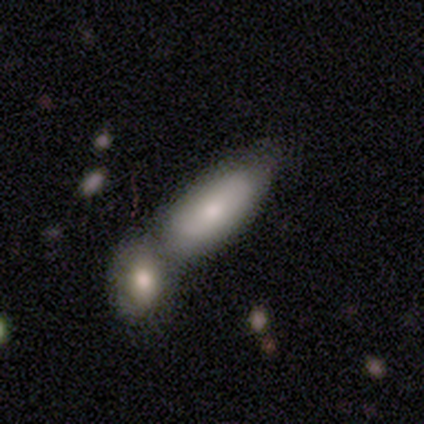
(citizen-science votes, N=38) A smooth galaxy with no disk features (74%) that is in between round and cigar-shaped (68%). Merging: merger (56%).